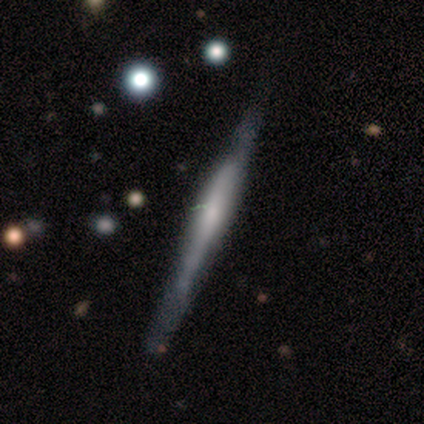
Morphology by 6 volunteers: This appears to be a featured or disk galaxy (100%) viewed edge-on (100%) with a boxy central bulge (50%, tied with none). Merging: none (50%, tied with minor disturbance).